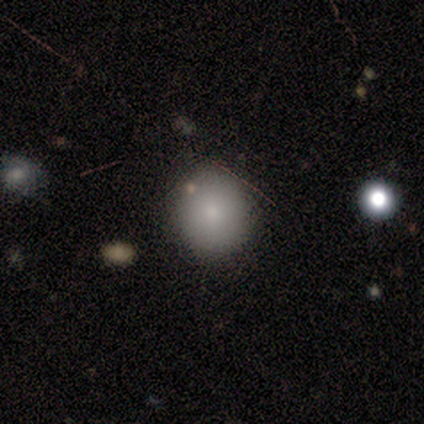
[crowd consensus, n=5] Overall: smooth (100%). How rounded: round (60%; in between 40%). Merging: none (100%).